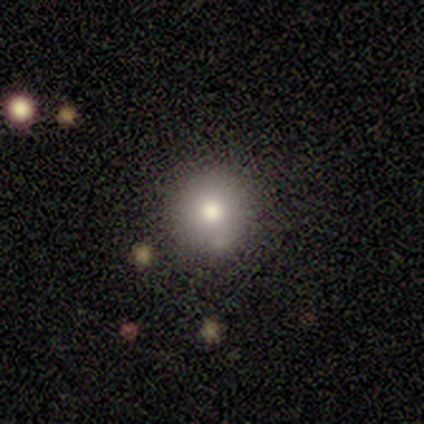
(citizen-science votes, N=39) Smooth or featured?
  - smooth: 64% *
  - featured or disk: 26%
  - star or artifact: 10%
How rounded?
  - round: 92% *
  - in between: 8%
  - cigar-shaped: 0%
Merging?
  - none: 80% *
  - minor disturbance: 14%
  - major disturbance: 3%
  - merger: 3%